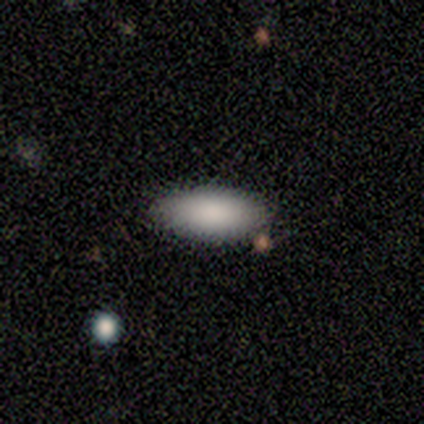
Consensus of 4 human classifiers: Morphology: type=smooth (100%); roundness=in between (75%); merging=none (100%).